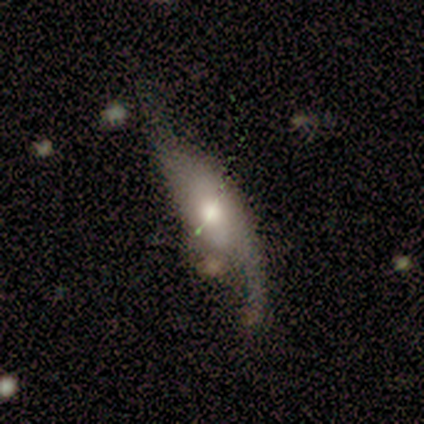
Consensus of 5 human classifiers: smooth_or_featured: featured or disk (p=0.80) [alt: smooth p=0.20]
disk_edge_on: no (p=1.00)
bar: weak (p=0.50) [tied with: no p=0.50]
has_spiral_arms: yes (p=0.75) [alt: no p=0.25]
spiral_winding: loose (p=0.67) [alt: medium p=0.33]
spiral_arm_count: 2 (p=0.67) [alt: 1 p=0.33]
bulge_size: moderate (p=0.50) [alt: large p=0.25]
merging: none (p=0.60) [alt: minor disturbance p=0.20]